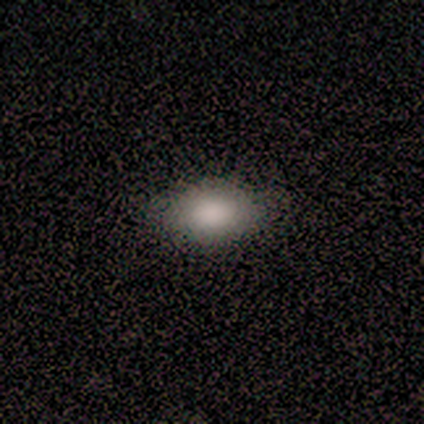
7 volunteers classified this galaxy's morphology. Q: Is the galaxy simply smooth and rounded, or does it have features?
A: smooth — 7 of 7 (100%).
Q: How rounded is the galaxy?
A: in between — 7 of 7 (100%).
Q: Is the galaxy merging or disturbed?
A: none — 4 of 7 (57%).